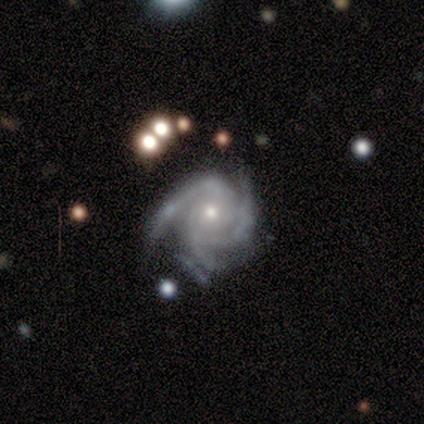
A featured or disk galaxy (100%) with no bar (50%), 3 (50%) tight (100%) spiral arms (100%) and a small central bulge (75%). Merging: none (100%).